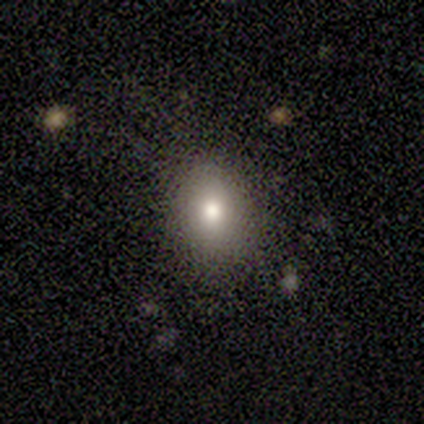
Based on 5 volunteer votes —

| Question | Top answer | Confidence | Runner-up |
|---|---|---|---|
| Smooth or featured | smooth | 100% | — |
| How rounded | round | 80% | in between (20%) |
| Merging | none | 80% | major disturbance (20%) |